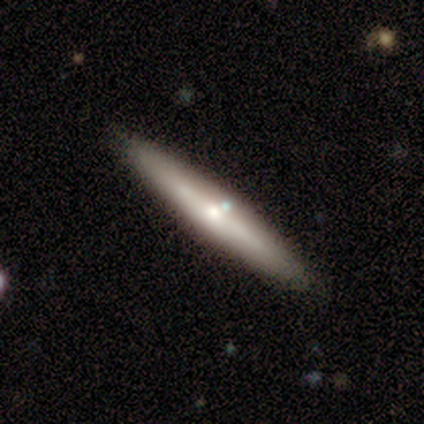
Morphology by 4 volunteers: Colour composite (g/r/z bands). It shows a featured or disk galaxy (100%) viewed edge-on (75%) with a rounded central bulge (67%). Merging: none (100%).